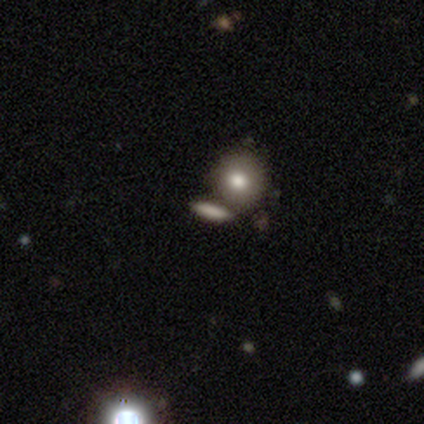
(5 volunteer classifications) Smooth or featured?
  - smooth: 80% *
  - featured or disk: 20%
  - star or artifact: 0%
How rounded?
  - cigar-shaped: 50% *
  - round: 25%
  - in between: 25%
Merging?
  - none: 80% *
  - minor disturbance: 20%
  - major disturbance: 0%
  - merger: 0%